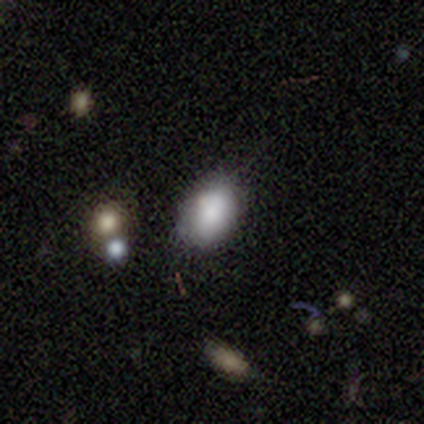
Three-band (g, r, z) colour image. It shows a smooth galaxy with no disk features (60%) that is in between round and cigar-shaped (100%). Merging: none (50%, tied with minor disturbance).